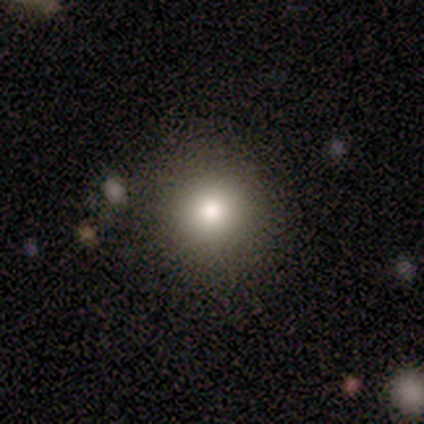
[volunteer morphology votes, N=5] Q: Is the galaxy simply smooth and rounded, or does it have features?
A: smooth — 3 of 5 (60%).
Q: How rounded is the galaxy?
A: round — 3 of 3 (100%).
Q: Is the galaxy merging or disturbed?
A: none — 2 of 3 (67%).